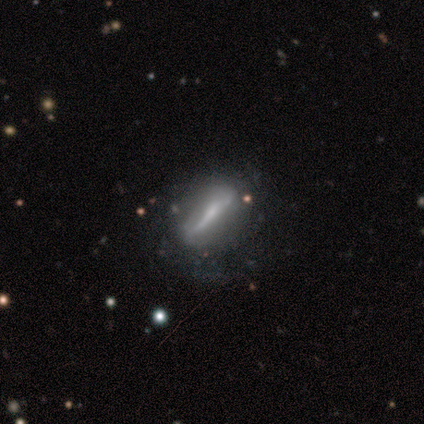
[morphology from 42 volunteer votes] Smooth or featured?
  - featured or disk: 71% *
  - smooth: 21%
  - star or artifact: 7%
Edge-on disk?
  - no: 60% *
  - yes: 40%
Bar?
  - strong: 72% *
  - weak: 17%
  - no: 11%
Spiral arms?
  - yes: 50% * (tied)
  - no: 50% * (tied)
Spiral winding?
  - medium: 67% *
  - tight: 22%
  - loose: 11%
Spiral arm count?
  - can't tell: 44% *
  - 2: 22%
  - more than 4: 22%
  - 1: 11%
  - 3: 0%
  - 4: 0%
Bulge size?
  - small: 61% *
  - moderate: 17%
  - none: 17%
  - large: 6%
  - dominant: 0%
Merging?
  - none: 56% *
  - minor disturbance: 23%
  - major disturbance: 18%
  - merger: 3%